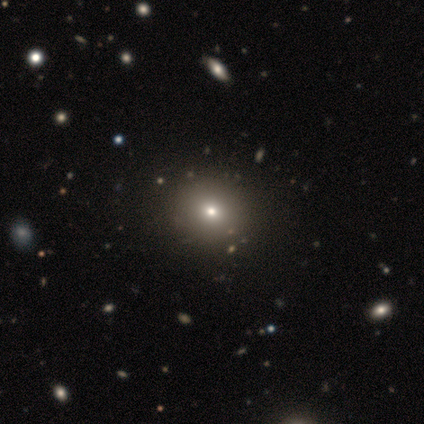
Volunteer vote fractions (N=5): smooth 40% (tied), featured or disk 40% (tied), star or artifact 20%. Down the decision tree: how rounded — round (100%); merging — none (75%).